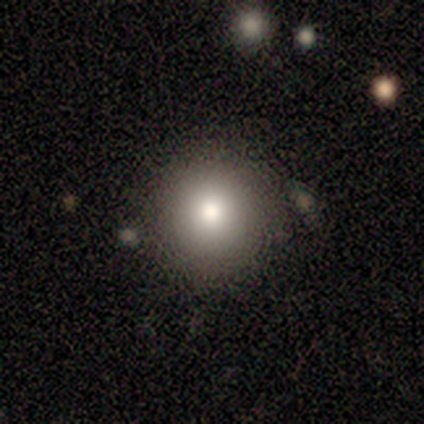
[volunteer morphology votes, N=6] smooth 100%, featured or disk 0%, star or artifact 0%. Down the decision tree: how rounded — round (83%); merging — none (83%).